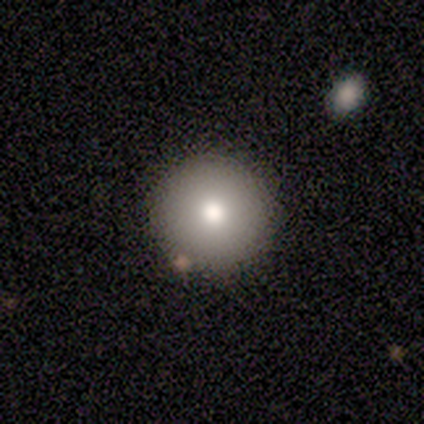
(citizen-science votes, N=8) A smooth galaxy with no disk features (75%) that is round (83%).

Vote fractions:
- Smooth or featured? smooth: 75% / featured or disk: 12% / star or artifact: 12%
- How rounded? round: 83% / cigar-shaped: 17% / in between: 0%
- Merging? none: 86% / major disturbance: 14% / minor disturbance: 0% / merger: 0%